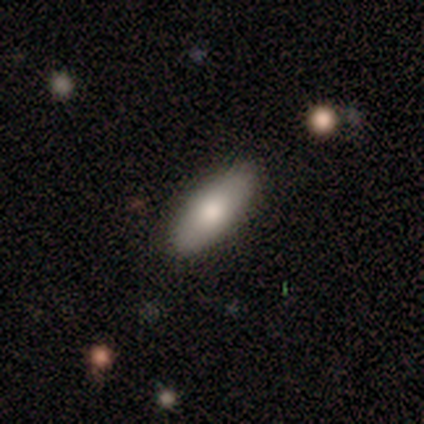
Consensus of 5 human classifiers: Q: Smooth or featured?
A: smooth (100%)
Q: How rounded?
A: in between (80%); runner-up: cigar-shaped (20%)
Q: Merging?
A: none (100%)